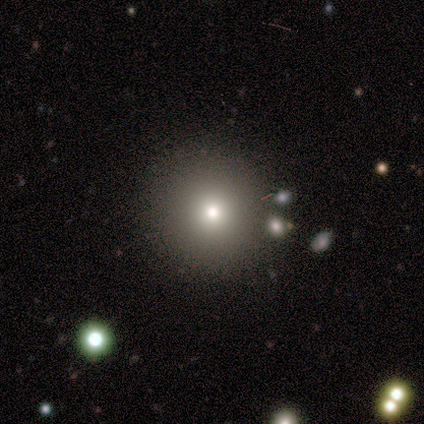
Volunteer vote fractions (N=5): Smooth or featured? smooth (60%)
How rounded? round (100%)
Merging? none (33%, tied with minor disturbance and merger)